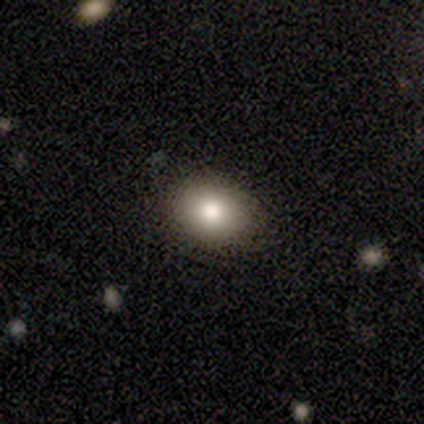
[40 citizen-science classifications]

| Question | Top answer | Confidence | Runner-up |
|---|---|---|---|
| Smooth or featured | smooth | 82% | featured or disk (10%) |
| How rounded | round | 55% | in between (45%) |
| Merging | none | 95% | minor disturbance (5%) |